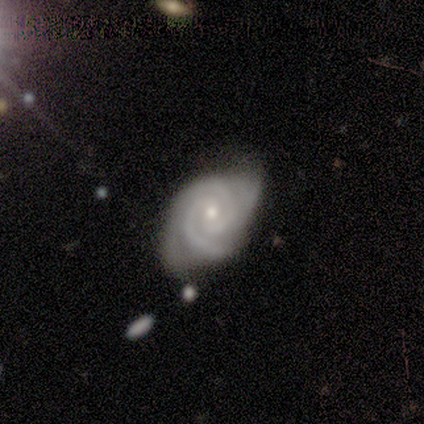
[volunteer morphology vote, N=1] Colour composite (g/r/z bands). It shows a featured or disk galaxy (100%) with no bar (100%), 2 (100%) tight (100%) spiral arms (100%) and a moderate central bulge (100%). Merging: none (100%).